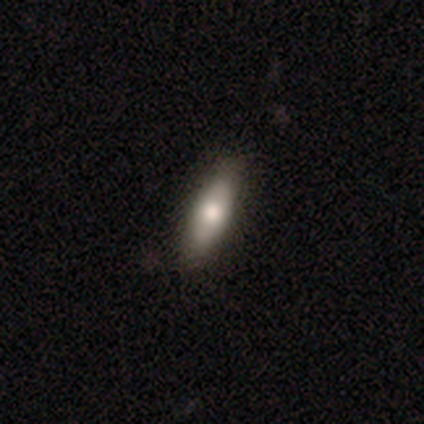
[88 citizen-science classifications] Smooth or featured: smooth — 60% (featured or disk — 33%)
How rounded: cigar-shaped — 53% (in between — 47%)
Merging: none — 87% (minor disturbance — 10%)